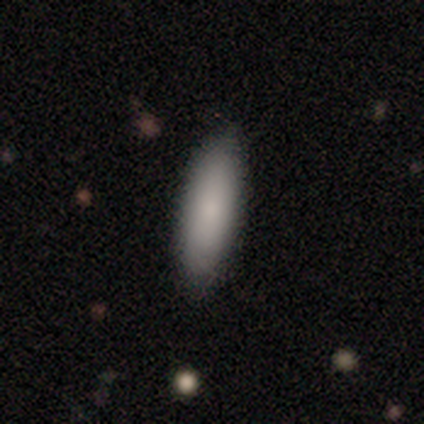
Smooth or featured: smooth — 83% (featured or disk — 14%)
How rounded: cigar-shaped — 57% (in between — 43%)
Merging: none — 85% (minor disturbance — 10%)